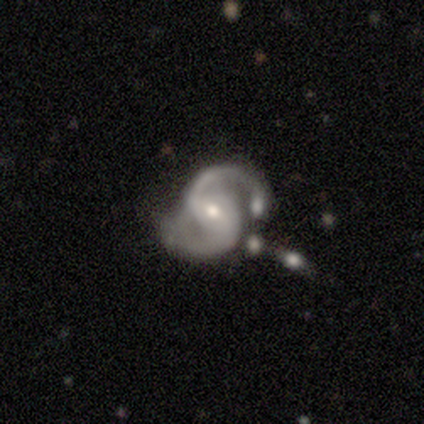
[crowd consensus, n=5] Overall: featured or disk (80%). Edge-on disk: no (100%). Bar: no (75%). Spiral arms: yes (100%). Spiral arm count: 2 (100%). Spiral winding: tight (50%, tied with medium). Bulge size: moderate (50%, tied with small). Merging: none (50%, tied with minor disturbance).